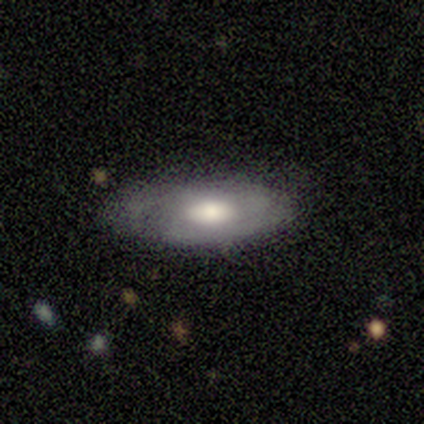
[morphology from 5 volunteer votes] This appears to be a smooth galaxy with no disk features (60%) that is in between round and cigar-shaped (100%). Merging: none (60%).